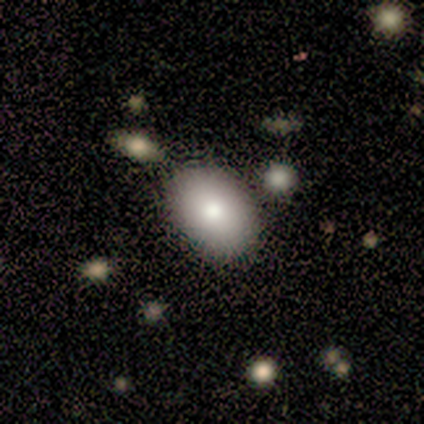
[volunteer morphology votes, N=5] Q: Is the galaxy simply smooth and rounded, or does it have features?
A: smooth — 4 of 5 (80%).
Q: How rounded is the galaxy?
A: in between — 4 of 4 (100%).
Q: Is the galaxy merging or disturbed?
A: none — 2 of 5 (40%).